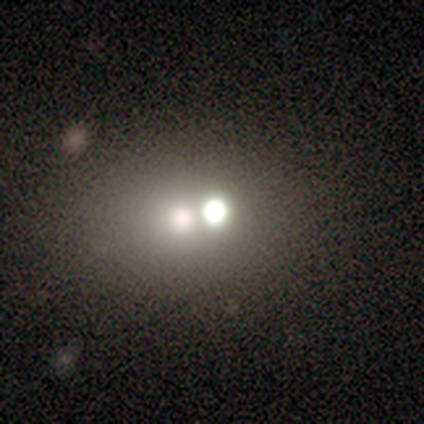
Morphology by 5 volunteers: Overall: smooth (80%). How rounded: round (50%, tied with in between). Merging: none (60%; minor disturbance 20%).